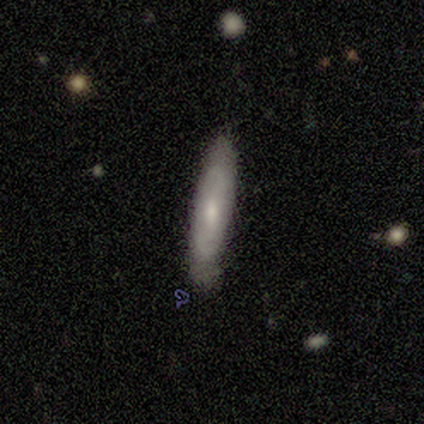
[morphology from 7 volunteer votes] type=smooth (57%); roundness=cigar-shaped (75%); merging=none (71%).